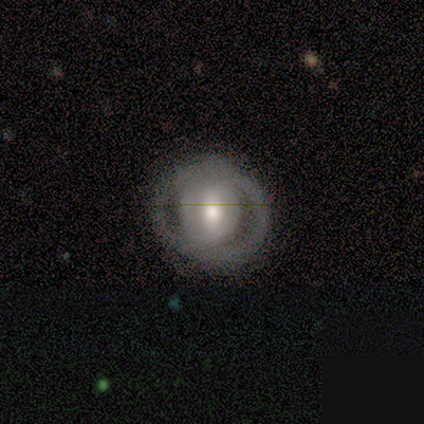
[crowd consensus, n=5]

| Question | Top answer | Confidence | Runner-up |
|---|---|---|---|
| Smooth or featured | featured or disk | 80% | smooth (20%) |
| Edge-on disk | no | 100% | — |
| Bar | strong | 50% | tied: weak (50%) |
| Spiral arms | yes | 50% | tied: no (50%) |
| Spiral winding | tight | 50% | tied: loose (50%) |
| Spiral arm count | can't tell | 100% | — |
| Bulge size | moderate | 100% | — |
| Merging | none | 100% | — |